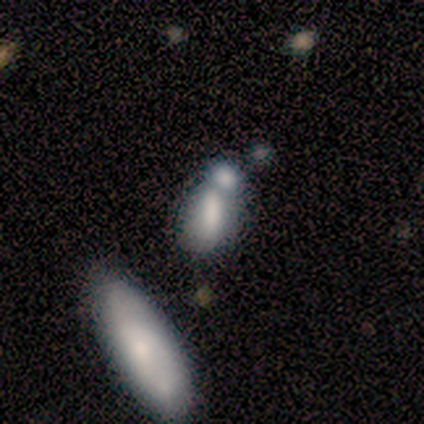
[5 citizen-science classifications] This appears to be a smooth galaxy with no disk features (80%) that is in between round and cigar-shaped (50%, tied with cigar-shaped). Merging: merger (80%).